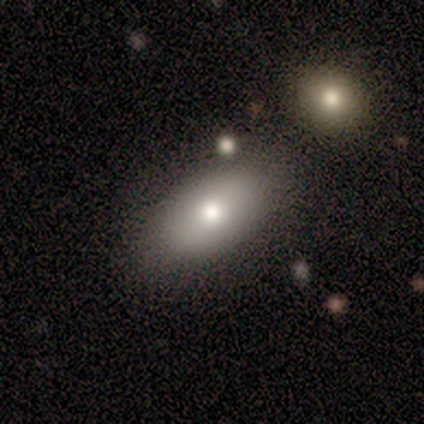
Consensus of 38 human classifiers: Smooth or featured?
  - smooth: 79% *
  - featured or disk: 18%
  - star or artifact: 3%
How rounded?
  - in between: 97% *
  - cigar-shaped: 3%
  - round: 0%
Merging?
  - none: 76% *
  - merger: 14%
  - minor disturbance: 8%
  - major disturbance: 3%